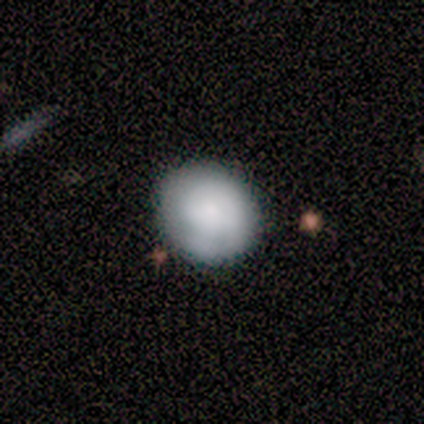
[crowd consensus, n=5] This is clearly a smooth galaxy (100%). How rounded: clearly round (100%). Merging: clearly none (80%).